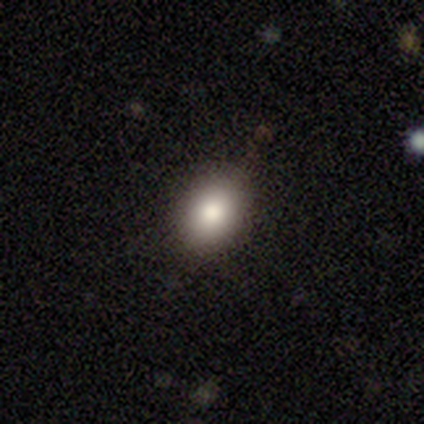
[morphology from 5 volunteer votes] Smooth or featured: smooth — 100%
How rounded: in between — 60% (round — 40%)
Merging: none — 100%